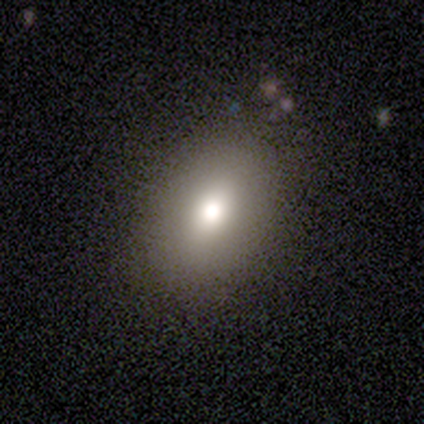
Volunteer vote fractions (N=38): A smooth galaxy with no disk features (76%) that is in between round and cigar-shaped (83%). Merging: none (83%).